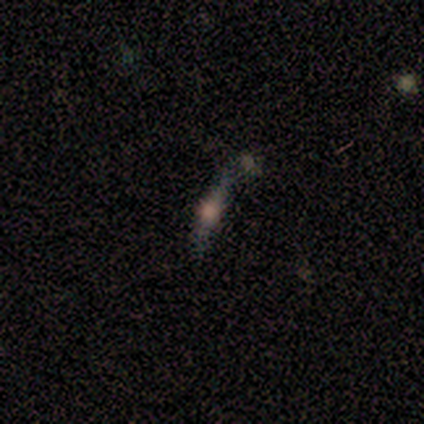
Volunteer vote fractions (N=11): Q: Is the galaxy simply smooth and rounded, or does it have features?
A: star or artifact — 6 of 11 (55%).